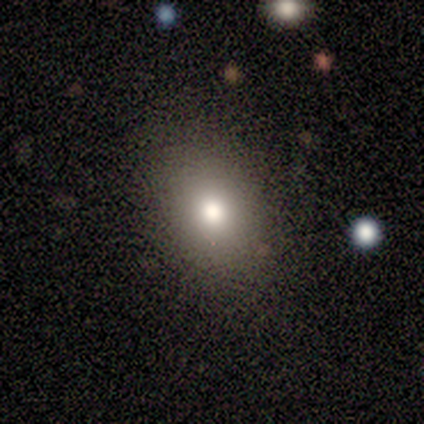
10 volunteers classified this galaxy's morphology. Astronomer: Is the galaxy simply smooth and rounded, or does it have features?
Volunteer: smooth — 50% (runner-up: featured or disk, 30%).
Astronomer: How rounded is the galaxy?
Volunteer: in between — 100%.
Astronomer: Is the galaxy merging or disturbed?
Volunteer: none — 100%.